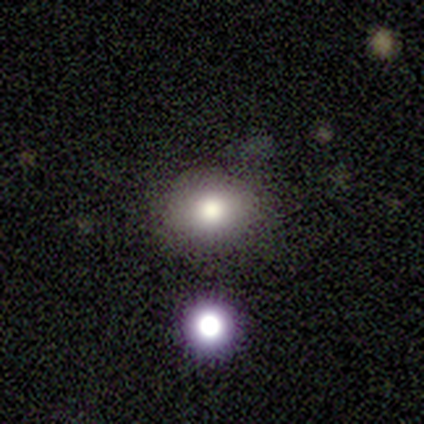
This appears to be a star or artifact, not a galaxy (75%).